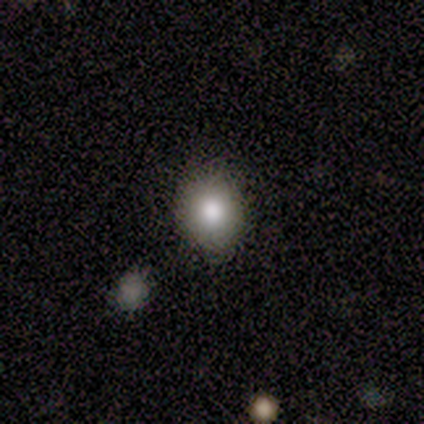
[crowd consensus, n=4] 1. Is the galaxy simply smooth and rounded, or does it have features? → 75% smooth, 25% star or artifact, 0% featured or disk.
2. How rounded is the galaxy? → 100% round, 0% in between, 0% cigar-shaped.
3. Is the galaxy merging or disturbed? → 33% none (tied), 33% minor disturbance (tied), 33% major disturbance (tied), 0% merger.